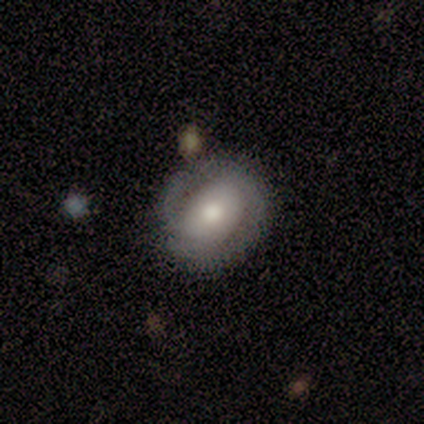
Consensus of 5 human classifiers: Morphology: type=featured or disk (60%); edge-on=no (100%); bar=weak (100%); spiral arms=no (67%); bulge=moderate (100%); merging=none (60%).